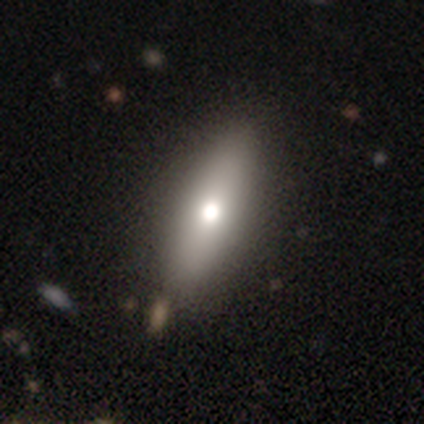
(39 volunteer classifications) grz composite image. It shows a smooth galaxy with no disk features (67%) that is in between round and cigar-shaped (73%). Merging: none (65%).